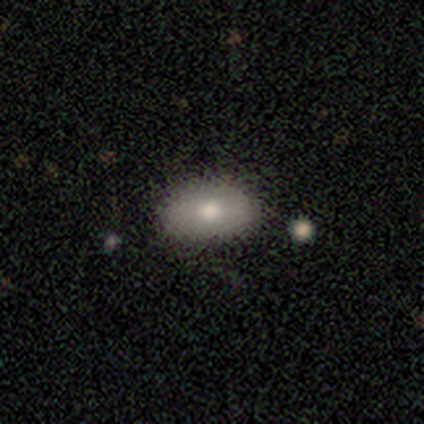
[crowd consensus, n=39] A smooth galaxy with no disk features (85%) that is in between round and cigar-shaped (85%).

Vote fractions:
- Smooth or featured? smooth: 85% / featured or disk: 10% / star or artifact: 5%
- How rounded? in between: 85% / round: 9% / cigar-shaped: 6%
- Merging? none: 81% / minor disturbance: 14% / major disturbance: 3% / merger: 3%